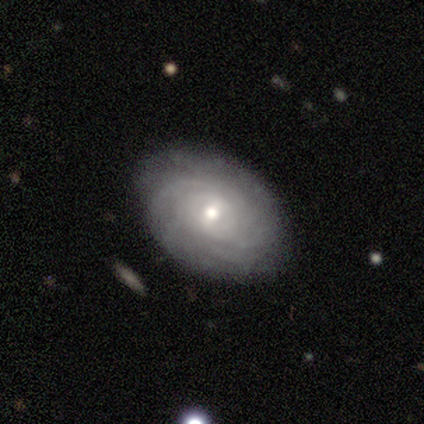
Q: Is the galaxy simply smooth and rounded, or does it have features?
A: featured or disk — 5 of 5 (100%).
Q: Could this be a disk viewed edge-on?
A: no — 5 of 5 (100%).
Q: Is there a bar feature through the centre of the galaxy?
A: weak — 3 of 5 (60%).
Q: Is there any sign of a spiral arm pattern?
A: yes — 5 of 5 (100%).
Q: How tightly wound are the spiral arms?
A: tight — 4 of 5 (80%).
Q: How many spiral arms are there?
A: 3 — 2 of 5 (40%, tied with can't tell).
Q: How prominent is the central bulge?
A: moderate — 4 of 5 (80%).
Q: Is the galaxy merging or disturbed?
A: none — 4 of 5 (80%).